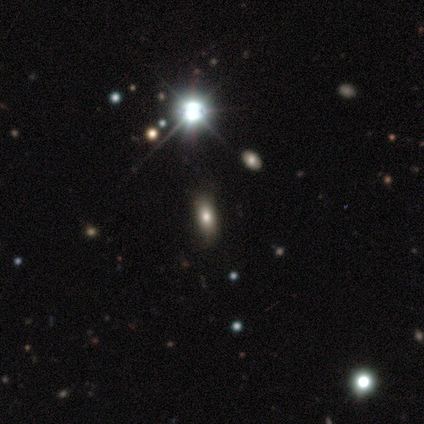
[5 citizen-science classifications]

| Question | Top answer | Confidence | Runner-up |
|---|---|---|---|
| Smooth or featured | smooth | 60% | star or artifact (40%) |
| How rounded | in between | 100% | — |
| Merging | none | 100% | — |